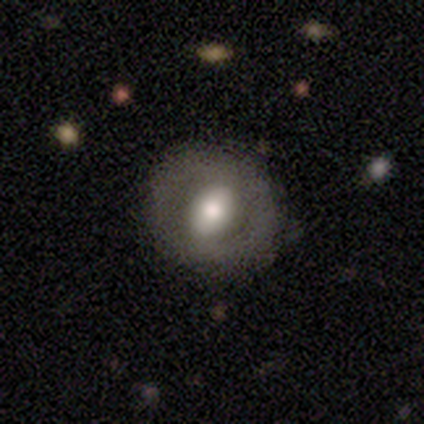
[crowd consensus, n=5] A featured or disk galaxy (60%) with no bar (67%), no spiral arms (100%) and a moderate central bulge (100%).

Vote fractions:
- Smooth or featured? featured or disk: 60% / smooth: 20% / star or artifact: 20%
- Edge-on disk? no: 100% / yes: 0%
- Bar? no: 67% / strong: 33% / weak: 0%
- Spiral arms? no: 100% / yes: 0%
- Bulge size? moderate: 100% / dominant: 0% / large: 0% / small: 0% / none: 0%
- Merging? none: 100% / minor disturbance: 0% / major disturbance: 0% / merger: 0%